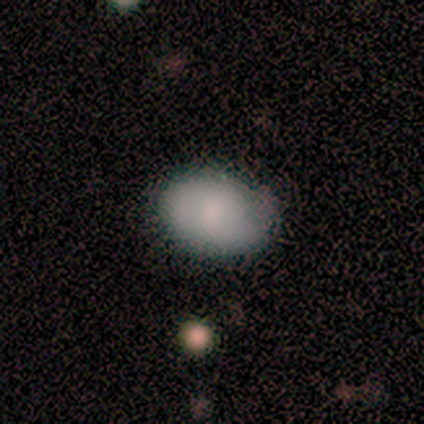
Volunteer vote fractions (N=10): This is clearly a smooth galaxy (100%). How rounded: clearly in between (100%). Merging: likely none (70%).